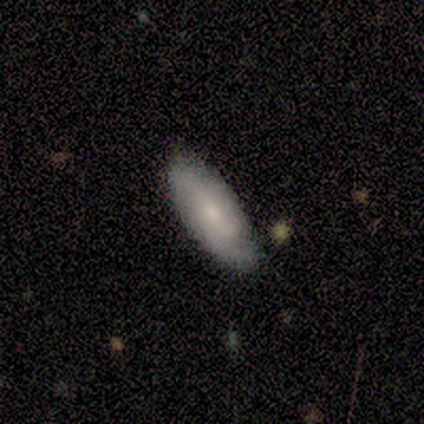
Smooth or featured?
  - featured or disk: 80% *
  - smooth: 20%
  - star or artifact: 0%
Edge-on disk?
  - no: 75% *
  - yes: 25%
Bar?
  - no: 67% *
  - weak: 33%
  - strong: 0%
Spiral arms?
  - no: 67% *
  - yes: 33%
Bulge size?
  - small: 67% *
  - moderate: 33%
  - dominant: 0%
  - large: 0%
  - none: 0%
Merging?
  - none: 80% *
  - minor disturbance: 20%
  - major disturbance: 0%
  - merger: 0%